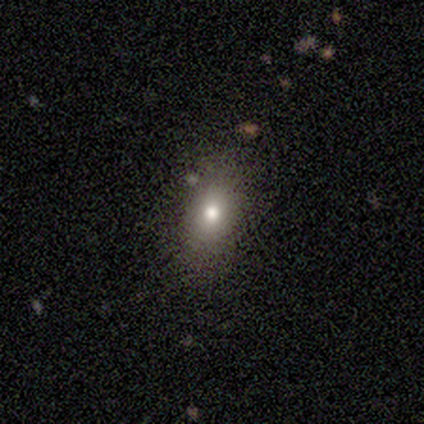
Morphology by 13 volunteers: Smooth or featured? 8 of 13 (62%) said smooth. How rounded? 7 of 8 (88%) said in between. Merging? 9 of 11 (82%) said none.